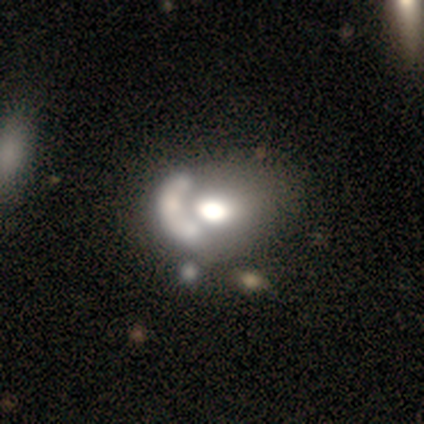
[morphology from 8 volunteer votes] Smooth or featured? 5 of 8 (62%) said featured or disk. Edge-on disk? 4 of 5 (80%) said no. Bar? 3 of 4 (75%) said no. Spiral arms? 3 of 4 (75%) said no. Bulge size? 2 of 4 (50%) said moderate. Merging? 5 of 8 (62%) said merger.